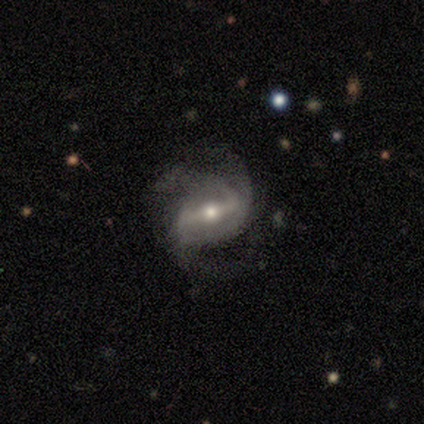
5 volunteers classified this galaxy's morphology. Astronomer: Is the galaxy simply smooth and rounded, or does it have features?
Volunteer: featured or disk — 80%.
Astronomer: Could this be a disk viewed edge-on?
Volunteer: no — 100%.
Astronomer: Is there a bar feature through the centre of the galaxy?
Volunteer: strong — 50%, tied with weak at 50%.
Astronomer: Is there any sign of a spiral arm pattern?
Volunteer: yes — 100%.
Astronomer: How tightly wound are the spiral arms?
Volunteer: tight — 50%, tied with medium at 50%.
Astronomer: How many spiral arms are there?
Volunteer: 3 — 75%.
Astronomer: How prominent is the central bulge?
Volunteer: moderate — 50%.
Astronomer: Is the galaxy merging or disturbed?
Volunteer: none — 50%.